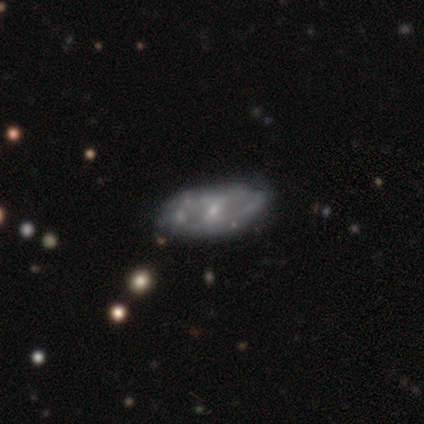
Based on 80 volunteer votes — Smooth or featured: featured or disk — 80% (smooth — 18%)
Edge-on disk: no — 95% (yes — 5%)
Bar: weak — 52% (no — 39%)
Spiral arms: yes — 70% (no — 30%)
Spiral winding: tight — 35% (medium — 33%)
Spiral arm count: 2 — 60% (can't tell — 33%)
Bulge size: small — 72% (moderate — 20%)
Merging: none — 40% (minor disturbance — 8%)